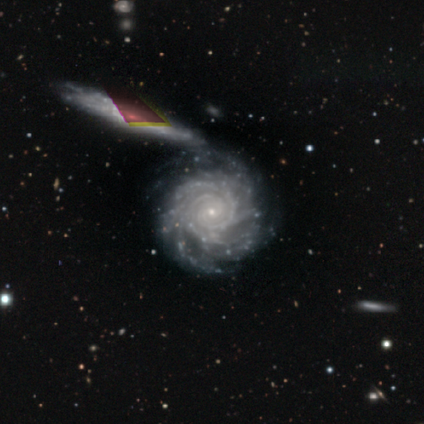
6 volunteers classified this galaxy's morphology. smooth_or_featured: featured or disk (p=1.00)
disk_edge_on: no (p=1.00)
bar: no (p=0.67) [alt: weak p=0.33]
has_spiral_arms: yes (p=0.83) [alt: no p=0.17]
spiral_winding: tight (p=0.80) [alt: medium p=0.20]
spiral_arm_count: 2 (p=0.40) [tied with: 4 p=0.40]
bulge_size: small (p=0.83) [alt: moderate p=0.17]
merging: none (p=0.67) [alt: major disturbance p=0.33]